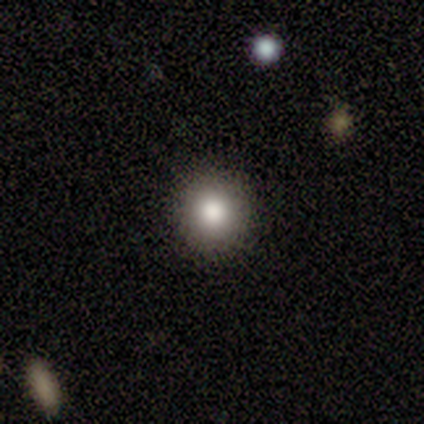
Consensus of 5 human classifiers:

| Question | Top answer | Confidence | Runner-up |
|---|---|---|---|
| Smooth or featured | smooth | 60% | featured or disk (20%) |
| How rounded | round | 100% | — |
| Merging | none | 100% | — |